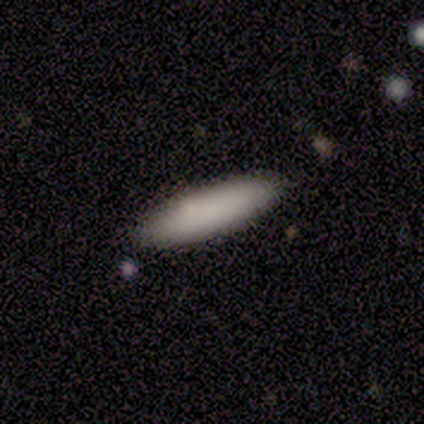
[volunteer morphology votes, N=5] Smooth or featured? smooth (100%)
How rounded? in between (60%)
Merging? none (100%)